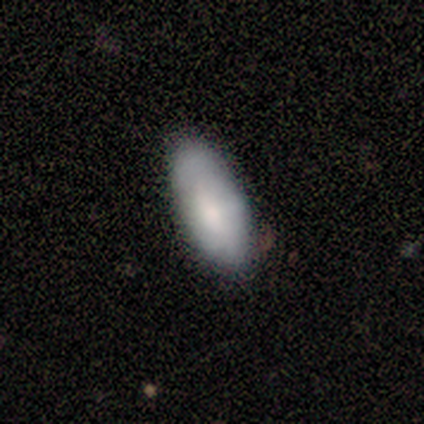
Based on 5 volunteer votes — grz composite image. It shows a smooth galaxy with no disk features (60%) that is in between round and cigar-shaped (100%). Merging: none (80%).